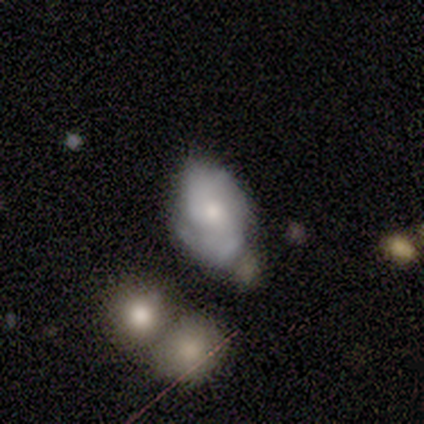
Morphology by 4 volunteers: Smooth or featured?
  - smooth: 50% * (tied)
  - featured or disk: 50% * (tied)
  - star or artifact: 0%
How rounded?
  - round: 50% * (tied)
  - in between: 50% * (tied)
  - cigar-shaped: 0%
Merging?
  - none: 50% *
  - minor disturbance: 25%
  - merger: 25%
  - major disturbance: 0%